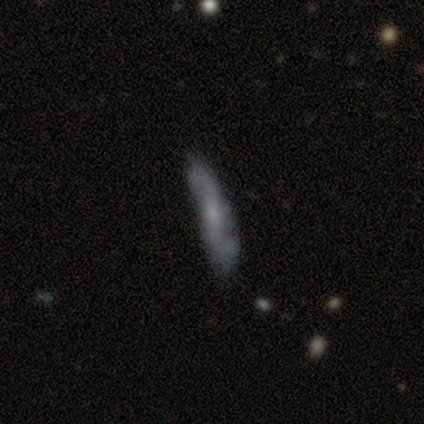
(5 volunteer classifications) featured or disk 80%, smooth 20%, star or artifact 0%. Down the decision tree: edge-on disk — no (75%); bar — weak (67%); spiral arms — yes (100%); spiral arm count — 2 (100%); spiral winding — loose (67%); bulge size — small (100%); merging — none (80%).